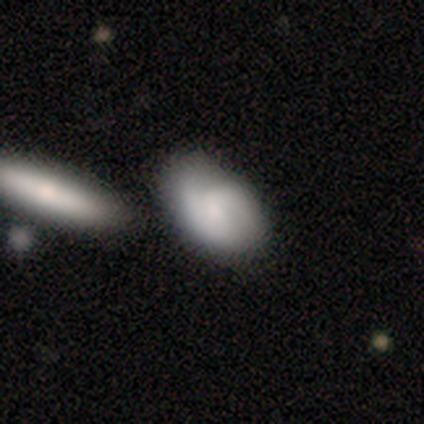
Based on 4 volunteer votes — smooth 75%, featured or disk 25%, star or artifact 0%. Down the decision tree: how rounded — in between (100%); merging — none (50%).